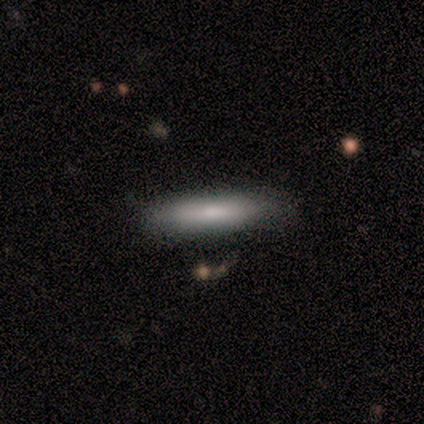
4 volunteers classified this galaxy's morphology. A smooth galaxy with no disk features (100%) that is cigar-shaped (75%). Merging: none (100%).